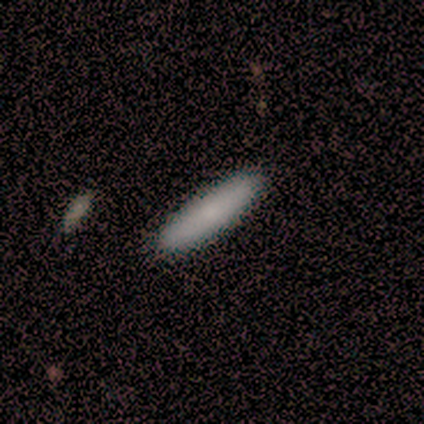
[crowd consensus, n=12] smooth-or-featured: smooth: 92% | featured or disk: 8% | star or artifact: 0%
  how-rounded: cigar-shaped: 64% | in between: 36% | round: 0%
  merging: none: 100% | minor disturbance: 0% | major disturbance: 0% | merger: 0%